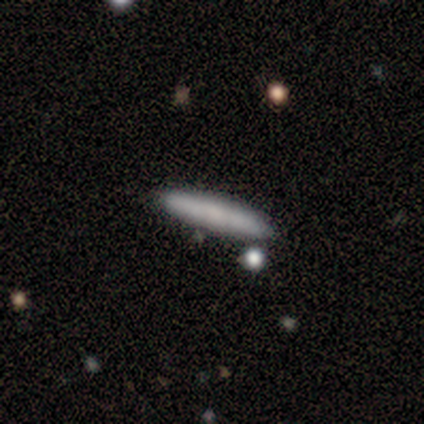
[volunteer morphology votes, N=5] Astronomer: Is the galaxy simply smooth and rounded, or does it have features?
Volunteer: smooth — 100%.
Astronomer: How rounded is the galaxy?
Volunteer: cigar-shaped — 100%.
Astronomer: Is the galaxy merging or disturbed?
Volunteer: none — 100%.